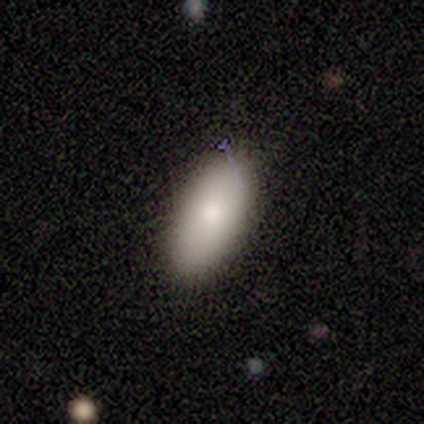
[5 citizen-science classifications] This is clearly a smooth galaxy (80%). How rounded: likely in between (75%). Merging: clearly none (100%).